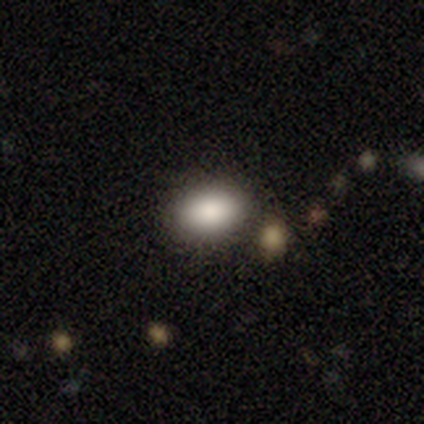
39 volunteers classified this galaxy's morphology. This appears to be a smooth galaxy with no disk features (92%) that is in between round and cigar-shaped (86%). Merging: none (73%).